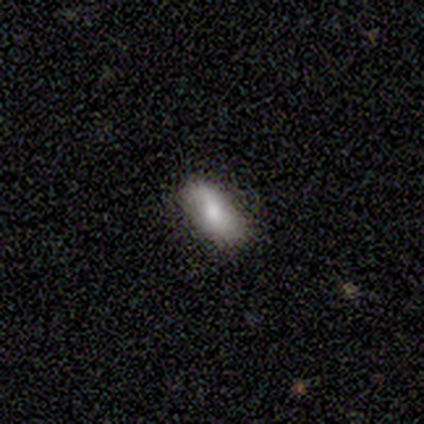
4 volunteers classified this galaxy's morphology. This appears to be a smooth galaxy with no disk features (75%) that is in between round and cigar-shaped (100%). Merging: none (100%).